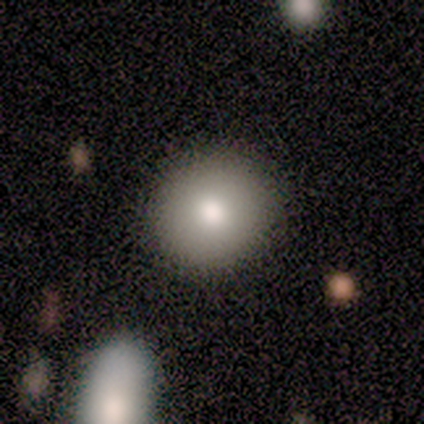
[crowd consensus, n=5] Smooth or featured? 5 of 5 (100%) said smooth. How rounded? 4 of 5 (80%) said round. Merging? 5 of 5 (100%) said none.